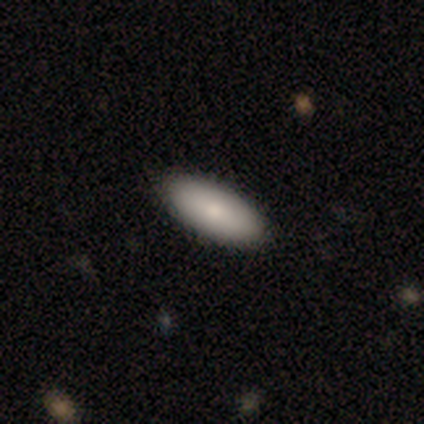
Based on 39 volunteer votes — Q: Smooth or featured?
A: smooth (90%); runner-up: featured or disk (8%)
Q: How rounded?
A: in between (77%); runner-up: cigar-shaped (23%)
Q: Merging?
A: none (92%); runner-up: minor disturbance (5%)